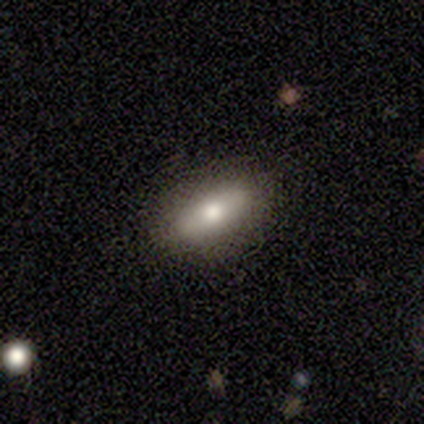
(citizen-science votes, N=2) Overall: smooth (100%). How rounded: in between (100%). Merging: none (100%).